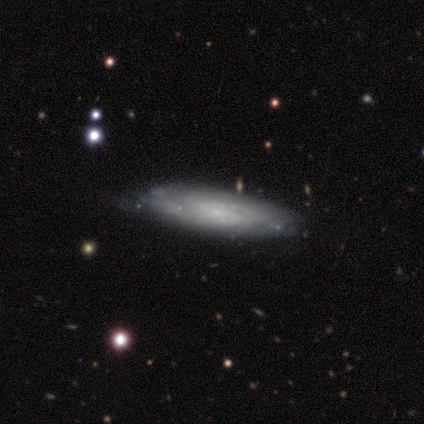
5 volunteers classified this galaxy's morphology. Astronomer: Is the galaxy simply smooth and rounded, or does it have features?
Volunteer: smooth — 40%, tied with featured or disk at 40%.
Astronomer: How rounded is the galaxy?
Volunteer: in between — 50%, tied with cigar-shaped at 50%.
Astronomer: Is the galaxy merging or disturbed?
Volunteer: none — 50%.